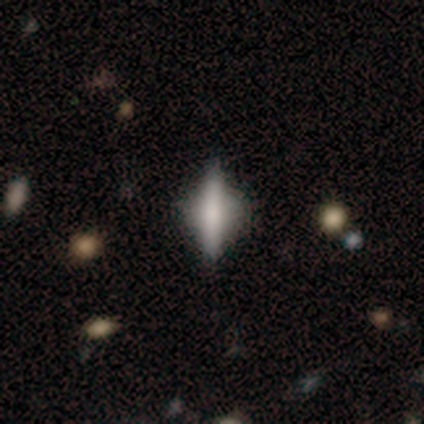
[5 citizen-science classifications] featured or disk 60%, smooth 40%, star or artifact 0%. Down the decision tree: edge-on disk — yes (100%); edge-on bulge — rounded (100%); merging — none (60%).